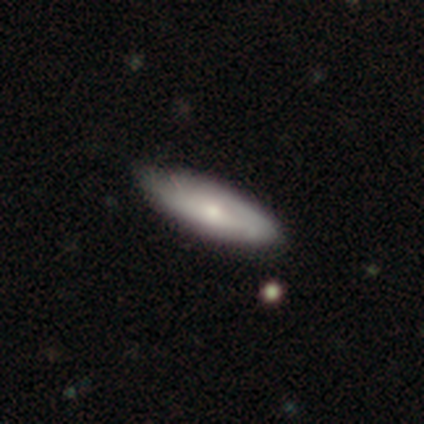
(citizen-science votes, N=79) Smooth or featured: smooth — 52% (featured or disk — 47%)
How rounded: in between — 56% (cigar-shaped — 44%)
Merging: none — 45% (minor disturbance — 6%)